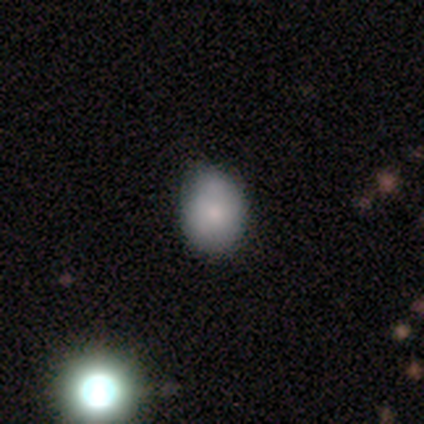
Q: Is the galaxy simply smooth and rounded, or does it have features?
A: smooth — 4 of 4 (100%).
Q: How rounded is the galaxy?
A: in between — 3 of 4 (75%).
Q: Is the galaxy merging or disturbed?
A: none — 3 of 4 (75%).